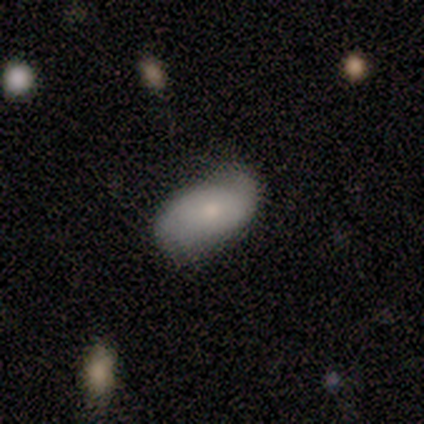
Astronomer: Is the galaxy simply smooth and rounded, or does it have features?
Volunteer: smooth — 67%.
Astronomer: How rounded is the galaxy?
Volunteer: in between — 100%.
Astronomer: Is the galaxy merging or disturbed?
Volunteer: none — 60% (runner-up: minor disturbance, 40%).